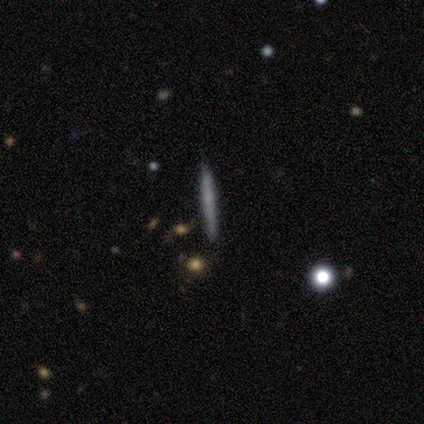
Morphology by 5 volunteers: This appears to be a smooth galaxy with no disk features (80%) that is cigar-shaped (100%). Merging: none (100%).